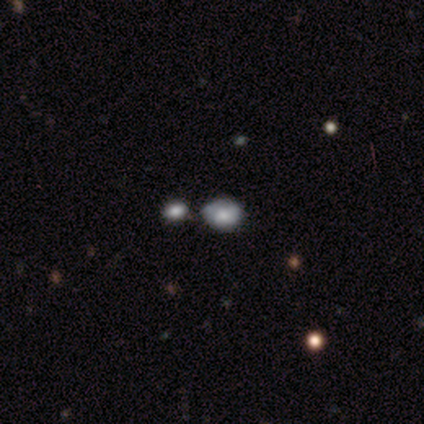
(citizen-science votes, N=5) A smooth galaxy with no disk features (60%) that is round (67%).

Vote fractions:
- Smooth or featured? smooth: 60% / featured or disk: 40% / star or artifact: 0%
- How rounded? round: 67% / in between: 33% / cigar-shaped: 0%
- Merging? none: 40% (tied) / minor disturbance: 40% (tied) / merger: 20% / major disturbance: 0%